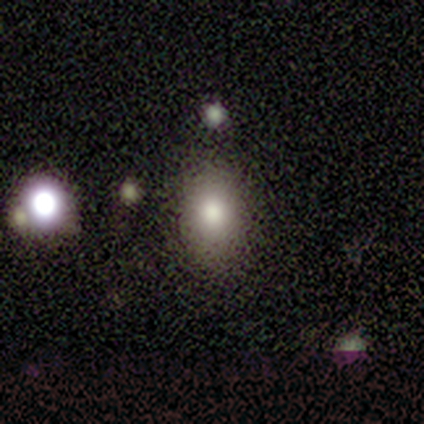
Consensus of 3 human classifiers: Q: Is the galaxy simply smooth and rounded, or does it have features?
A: smooth — 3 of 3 (100%).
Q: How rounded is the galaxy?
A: in between — 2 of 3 (67%).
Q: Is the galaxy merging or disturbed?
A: minor disturbance — 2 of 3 (67%).